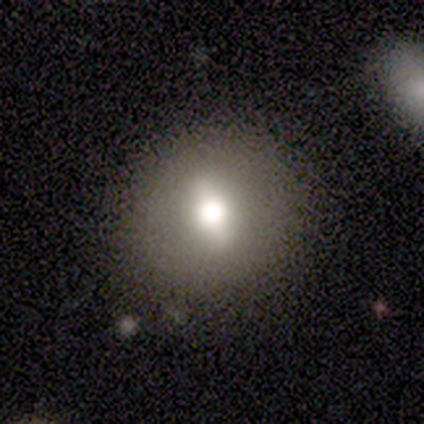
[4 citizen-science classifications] Overall: featured or disk (75%). Edge-on disk: no (67%; yes 33%). Bar: strong (50%, tied with weak). Spiral arms: no (100%). Bulge size: large (50%, tied with moderate). Merging: none (75%).